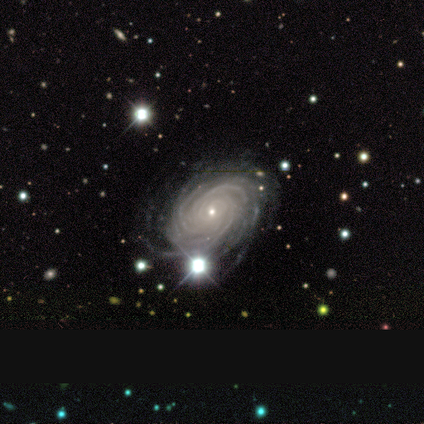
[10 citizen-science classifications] Overall: featured or disk (90%). Edge-on disk: no (100%). Bar: no (67%; weak 33%). Spiral arms: yes (100%). Spiral arm count: more than 4 (67%). Spiral winding: tight (67%; medium 33%). Bulge size: small (100%). Merging: none (80%).